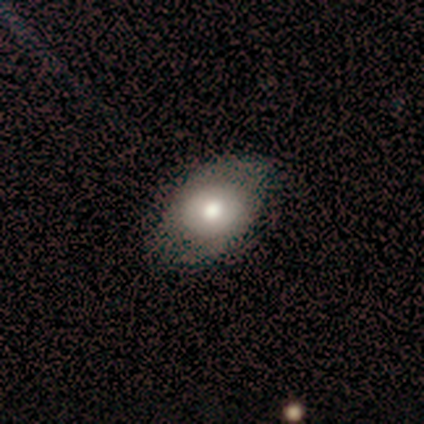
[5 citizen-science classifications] Volunteers were most divided on "merging": none: 60%, minor disturbance: 40%, major disturbance: 0%, merger: 0%. More confident: smooth or featured — smooth (100%); how rounded — in between (100%).